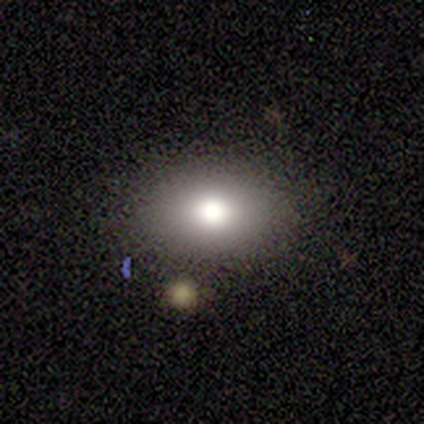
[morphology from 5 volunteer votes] Overall: smooth (40%, tied with star or artifact). How rounded: in between (100%). Merging: none (100%).